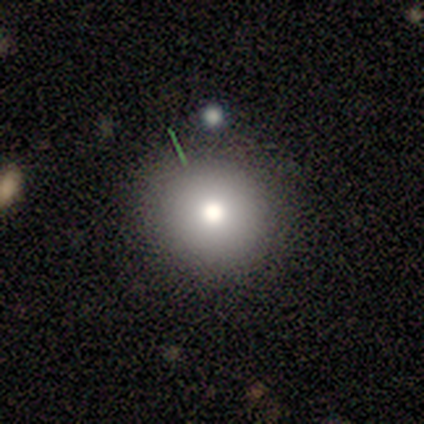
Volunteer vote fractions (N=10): Smooth or featured?
  - smooth: 90% *
  - featured or disk: 10%
  - star or artifact: 0%
How rounded?
  - round: 89% *
  - in between: 11%
  - cigar-shaped: 0%
Merging?
  - none: 70% *
  - minor disturbance: 20%
  - major disturbance: 10%
  - merger: 0%